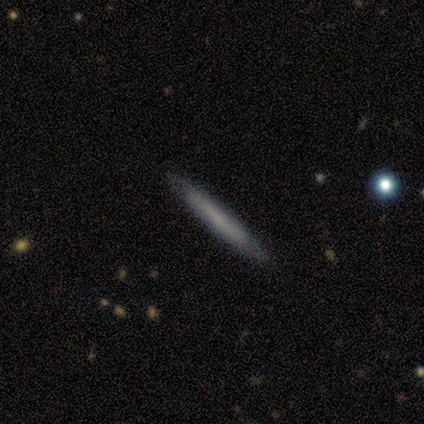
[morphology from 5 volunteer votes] A smooth galaxy with no disk features (60%) that is cigar-shaped (100%).

Vote fractions:
- Smooth or featured? smooth: 60% / featured or disk: 40% / star or artifact: 0%
- How rounded? cigar-shaped: 100% / round: 0% / in between: 0%
- Merging? none: 80% / merger: 20% / minor disturbance: 0% / major disturbance: 0%